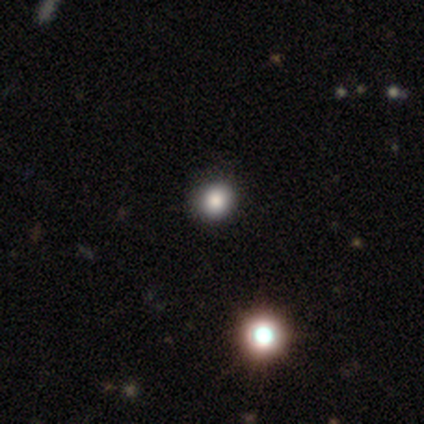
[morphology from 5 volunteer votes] This appears to be a smooth galaxy with no disk features (60%) that is round (100%). Merging: none (67%).